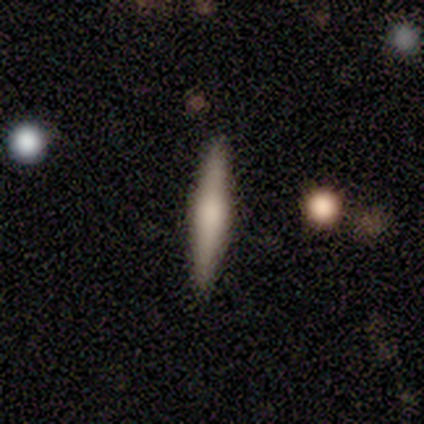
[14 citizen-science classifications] smooth-or-featured: smooth: 50% (tied) | featured or disk: 50% (tied) | star or artifact: 0%
  how-rounded: cigar-shaped: 86% | in between: 14% | round: 0%
  merging: none: 86% | minor disturbance: 14% | major disturbance: 0% | merger: 0%